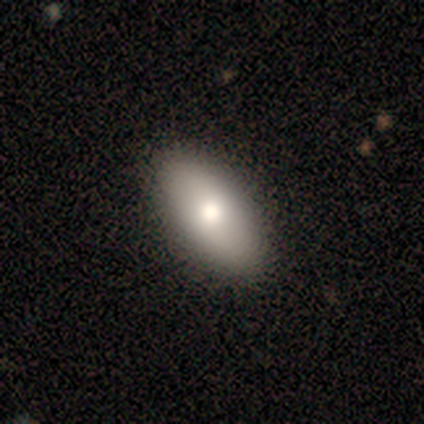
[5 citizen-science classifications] Smooth or featured? 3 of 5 (60%) said smooth. How rounded? 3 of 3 (100%) said in between. Merging? 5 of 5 (100%) said none.